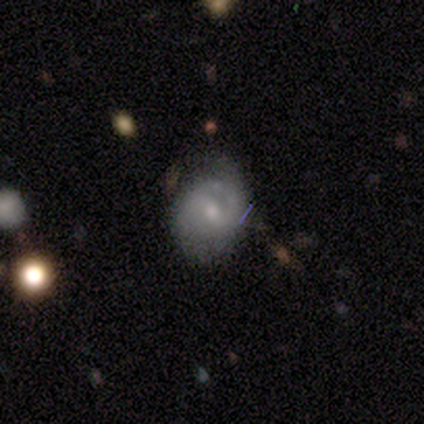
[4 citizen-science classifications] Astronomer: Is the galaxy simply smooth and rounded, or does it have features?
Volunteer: featured or disk — 75%.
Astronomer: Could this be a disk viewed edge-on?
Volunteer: no — 100%.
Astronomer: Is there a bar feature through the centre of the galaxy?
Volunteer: weak — 67%.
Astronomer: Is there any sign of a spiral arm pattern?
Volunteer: yes — 67%.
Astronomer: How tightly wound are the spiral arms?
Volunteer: tight — 50%, tied with medium at 50%.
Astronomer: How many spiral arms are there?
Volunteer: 1 — 50%, tied with can't tell at 50%.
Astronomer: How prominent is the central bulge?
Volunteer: small — 67%.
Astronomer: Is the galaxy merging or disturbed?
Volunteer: none — 75%.